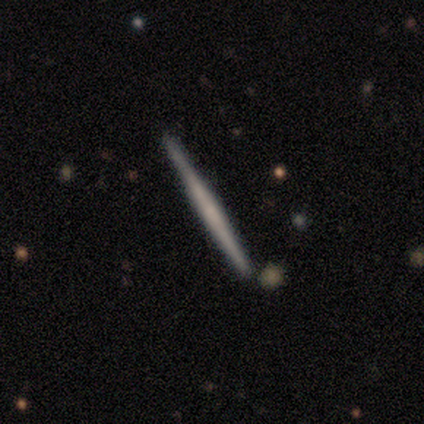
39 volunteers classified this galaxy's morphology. Smooth or featured: featured or disk — 74% (smooth — 23%)
Edge-on disk: yes — 100%
Edge-on bulge: none — 79% (boxy — 14%)
Merging: none — 89% (minor disturbance — 5%)